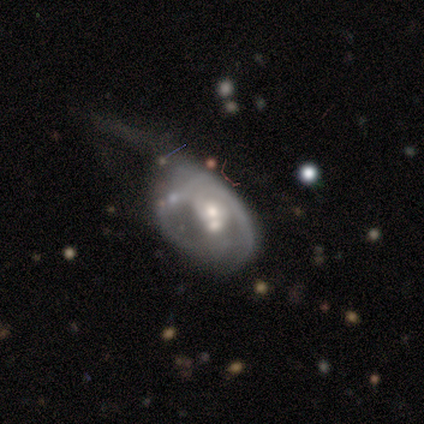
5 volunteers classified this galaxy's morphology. smooth-or-featured: featured or disk: 60% | smooth: 40% | star or artifact: 0%
  disk-edge-on: no: 100% | yes: 0%
    bar: no: 100% | strong: 0% | weak: 0%
    has-spiral-arms: yes: 67% | no: 33%
      spiral-winding: tight: 50% (tied) | medium: 50% (tied) | loose: 0%
      spiral-arm-count: 1: 50% (tied) | can't tell: 50% (tied) | 2: 0% | 3: 0% | 4: 0% | more than 4: 0%
    bulge-size: small: 67% | moderate: 33% | dominant: 0% | large: 0% | none: 0%
  merging: minor disturbance: 40% (tied) | merger: 40% (tied) | major disturbance: 20% | none: 0%